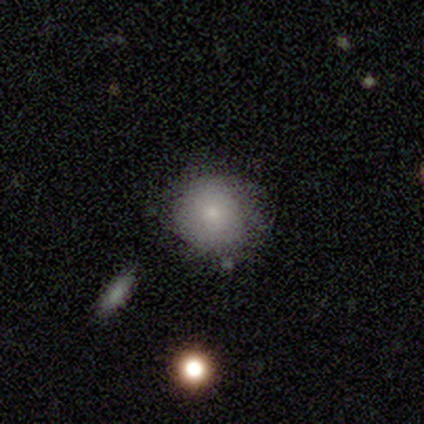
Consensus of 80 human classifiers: Morphology: type=smooth (82%); roundness=round (98%); merging=none (63%).